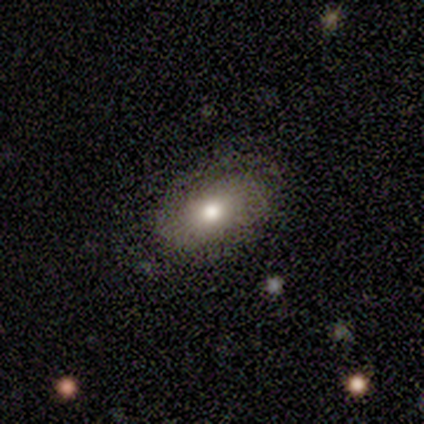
Volunteers were most divided on "smooth or featured": smooth: 75%, featured or disk: 25%, star or artifact: 0%. More confident: how rounded — in between (100%); merging — none (75%).